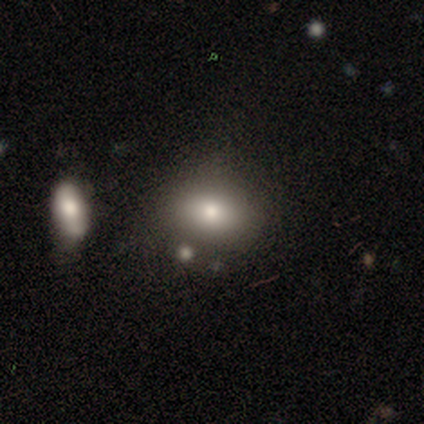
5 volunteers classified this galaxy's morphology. smooth 80%, featured or disk 20%, star or artifact 0%. Down the decision tree: how rounded — in between (100%); merging — minor disturbance (40%, tied with merger).